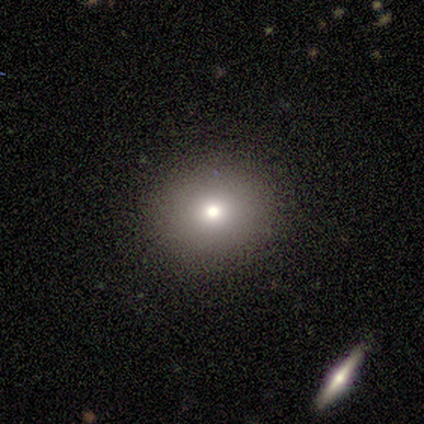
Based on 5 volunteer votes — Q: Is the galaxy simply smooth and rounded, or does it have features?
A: smooth — 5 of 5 (100%).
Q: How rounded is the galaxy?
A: round — 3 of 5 (60%).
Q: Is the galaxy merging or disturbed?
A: none — 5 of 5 (100%).